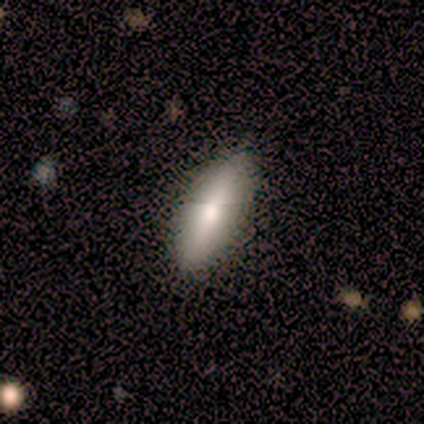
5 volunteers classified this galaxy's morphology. smooth_or_featured: smooth (p=1.00)
how_rounded: cigar-shaped (p=0.60) [alt: in between p=0.40]
merging: none (p=0.80) [alt: minor disturbance p=0.20]